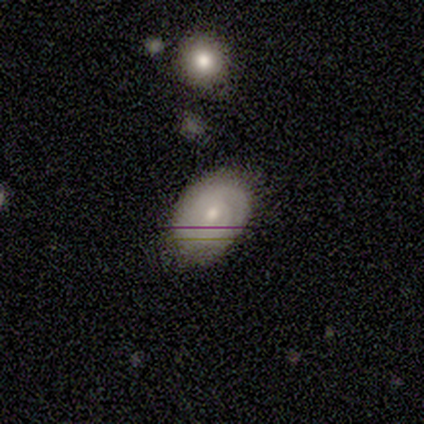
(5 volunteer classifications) Smooth or featured: featured or disk — 60% (smooth — 40%)
Edge-on disk: no — 67% (yes — 33%)
Bar: weak — 50% (tied with no — 50%)
Spiral arms: yes — 50% (tied with no — 50%)
Spiral winding: tight — 100%
Spiral arm count: 2 — 100%
Bulge size: moderate — 100%
Merging: none — 80% (major disturbance — 20%)